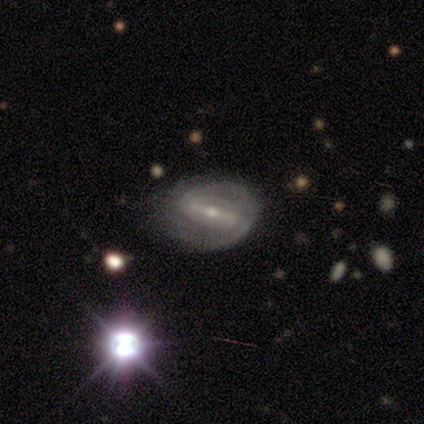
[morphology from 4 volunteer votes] smooth-or-featured: featured or disk: 75% | smooth: 25% | star or artifact: 0%
  disk-edge-on: no: 100% | yes: 0%
    bar: weak: 67% | strong: 33% | no: 0%
    has-spiral-arms: yes: 100% | no: 0%
      spiral-winding: medium: 67% | tight: 33% | loose: 0%
      spiral-arm-count: 2: 100% | 1: 0% | 3: 0% | 4: 0% | more than 4: 0% | can't tell: 0%
    bulge-size: small: 67% | moderate: 33% | dominant: 0% | large: 0% | none: 0%
  merging: none: 50% (tied) | minor disturbance: 50% (tied) | major disturbance: 0% | merger: 0%